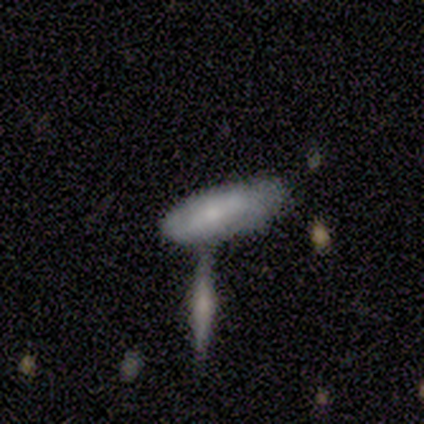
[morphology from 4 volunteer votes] Smooth or featured? smooth (75%)
How rounded? cigar-shaped (67%)
Merging? minor disturbance (50%, tied with merger)